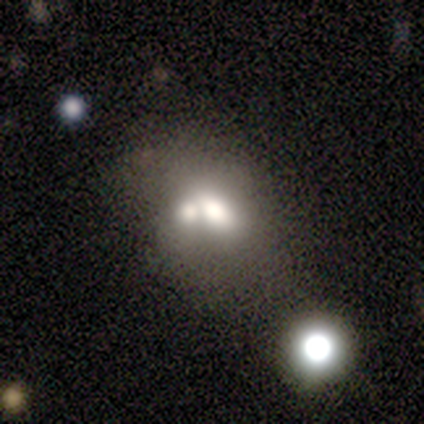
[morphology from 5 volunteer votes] Volunteers were most divided on "smooth or featured": smooth: 60%, featured or disk: 40%, star or artifact: 0%. More confident: merging — merger (100%); how rounded — in between (67%).